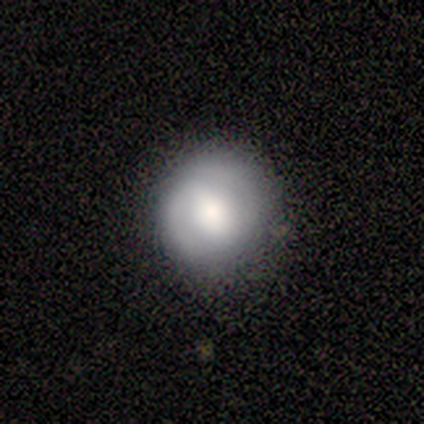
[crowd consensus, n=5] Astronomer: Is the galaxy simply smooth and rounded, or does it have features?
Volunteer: smooth — 60% (runner-up: featured or disk, 40%).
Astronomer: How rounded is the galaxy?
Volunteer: round — 100%.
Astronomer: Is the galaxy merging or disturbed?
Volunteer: none — 80%.